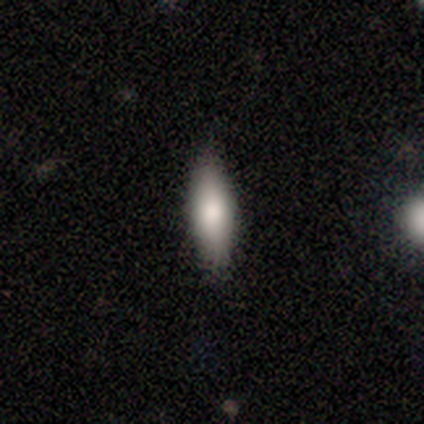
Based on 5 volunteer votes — Volunteers were most divided on "how rounded": cigar-shaped: 75%, in between: 25%, round: 0%. More confident: merging — none (100%); smooth or featured — smooth (80%).